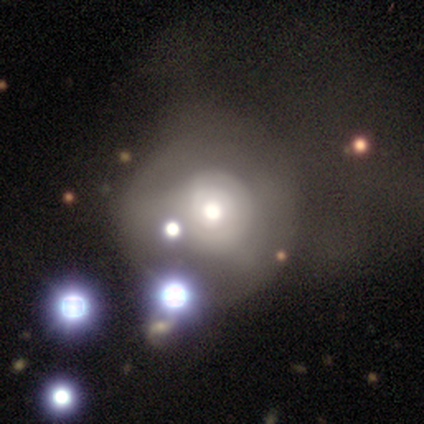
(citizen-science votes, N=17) Volunteers were most divided on "smooth or featured": featured or disk: 47%, star or artifact: 29%, smooth: 24%. More confident: edge-on disk — no (100%); bar — no (100%); spiral arms — no (100%); bulge size — moderate (62%); merging — none (58%).